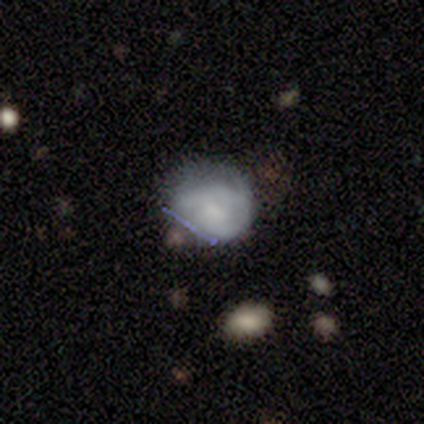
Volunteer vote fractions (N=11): A featured or disk galaxy (64%) with no bar (57%), tight (67%) spiral arms (86%) and a moderate central bulge (43%, tied with none).

Vote fractions:
- Smooth or featured? featured or disk: 64% / smooth: 36% / star or artifact: 0%
- Edge-on disk? no: 100% / yes: 0%
- Bar? no: 57% / weak: 43% / strong: 0%
- Spiral arms? yes: 86% / no: 14%
- Spiral winding? tight: 67% / medium: 17% / loose: 17%
- Spiral arm count? can't tell: 67% / 1: 17% / 2: 17% / 3: 0% / 4: 0% / more than 4: 0%
- Bulge size? moderate: 43% (tied) / none: 43% (tied) / small: 14% / dominant: 0% / large: 0%
- Merging? none: 36% (tied) / minor disturbance: 36% (tied) / major disturbance: 18% / merger: 9%